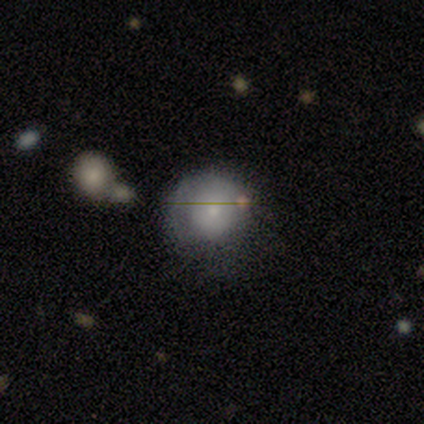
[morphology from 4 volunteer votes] smooth-or-featured: smooth: 50% (tied) | featured or disk: 50% (tied) | star or artifact: 0%
  how-rounded: round: 50% (tied) | in between: 50% (tied) | cigar-shaped: 0%
  merging: minor disturbance: 75% | none: 25% | major disturbance: 0% | merger: 0%